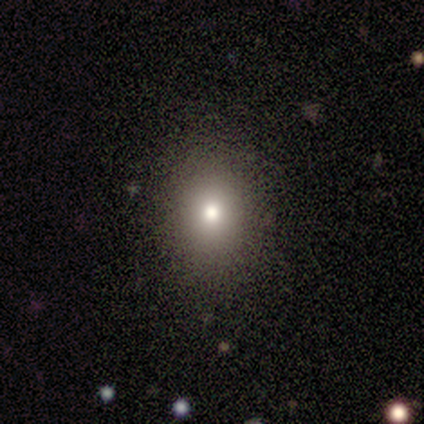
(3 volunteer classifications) Morphology: type=smooth (67%); roundness=round (100%); merging=none (100%).